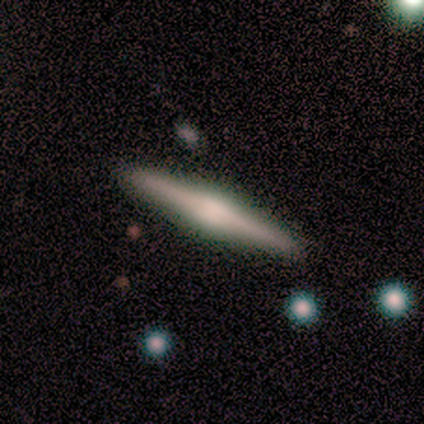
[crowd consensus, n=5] Smooth or featured?
  - featured or disk: 100% *
  - smooth: 0%
  - star or artifact: 0%
Edge-on disk?
  - yes: 100% *
  - no: 0%
Edge-on bulge?
  - rounded: 60% *
  - boxy: 20%
  - none: 20%
Merging?
  - none: 100% *
  - minor disturbance: 0%
  - major disturbance: 0%
  - merger: 0%